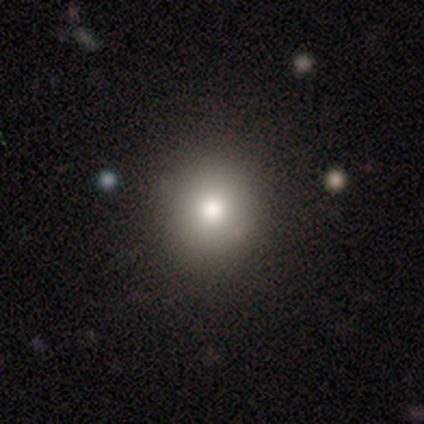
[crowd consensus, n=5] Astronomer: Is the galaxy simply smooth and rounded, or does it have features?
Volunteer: smooth — 60%.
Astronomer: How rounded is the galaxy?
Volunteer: round — 100%.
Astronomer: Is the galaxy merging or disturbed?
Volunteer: none — 100%.